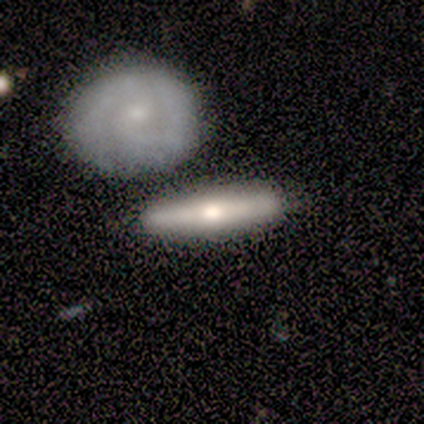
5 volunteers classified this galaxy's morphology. A featured or disk galaxy (60%) viewed edge-on (100%) with a rounded central bulge (100%).

Vote fractions:
- Smooth or featured? featured or disk: 60% / smooth: 40% / star or artifact: 0%
- Edge-on disk? yes: 100% / no: 0%
- Edge-on bulge? rounded: 100% / boxy: 0% / none: 0%
- Merging? none: 80% / major disturbance: 20% / minor disturbance: 0% / merger: 0%